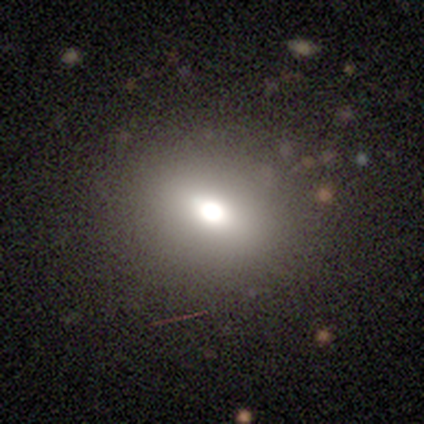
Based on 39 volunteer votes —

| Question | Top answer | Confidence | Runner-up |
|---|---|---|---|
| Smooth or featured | smooth | 64% | featured or disk (21%) |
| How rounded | in between | 56% | round (44%) |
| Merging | none | 85% | minor disturbance (12%) |